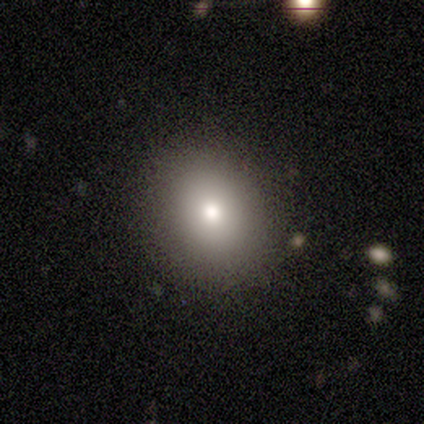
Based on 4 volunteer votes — Smooth or featured? 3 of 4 (75%) said smooth. How rounded? 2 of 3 (67%) said round. Merging? 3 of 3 (100%) said none.